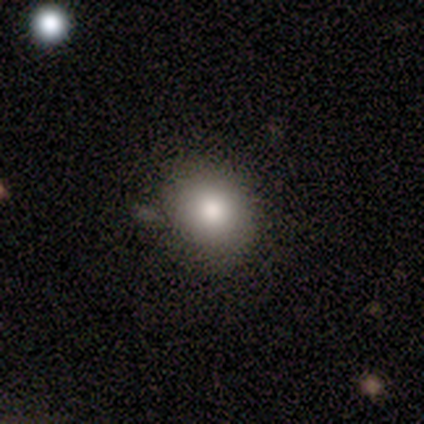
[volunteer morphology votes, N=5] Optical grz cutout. It shows a smooth galaxy with no disk features (100%) that is round (80%). Merging: minor disturbance (60%).